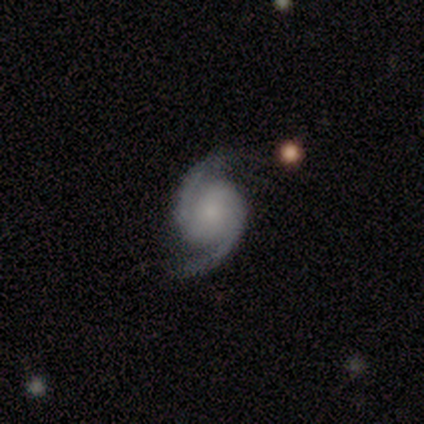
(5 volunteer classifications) Volunteers were most divided on "spiral winding": loose: 50%, tight: 25%, medium: 25%. More confident: smooth or featured — featured or disk (100%); edge-on disk — no (100%); spiral arm count — 2 (100%); merging — none (100%); spiral arms — yes (80%); bulge size — moderate (80%); bar — no (60%).